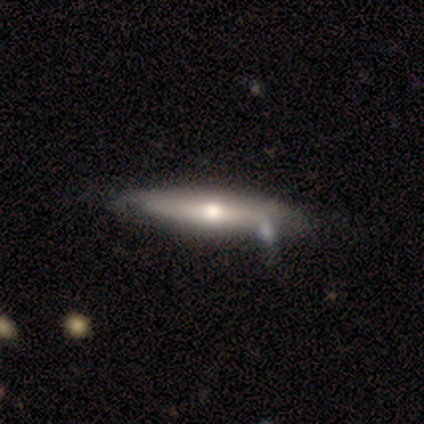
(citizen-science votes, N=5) This is likely a featured or disk galaxy (60%). It is likely viewed edge-on (67%). Edge-on bulge: clearly rounded (100%). Merging: likely none (60%).